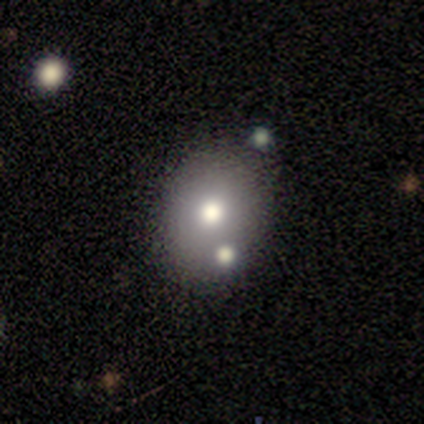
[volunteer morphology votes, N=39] Volunteers were most divided on "how rounded": in between: 62%, round: 38%, cigar-shaped: 0%. More confident: merging — none (69%); smooth or featured — smooth (67%).